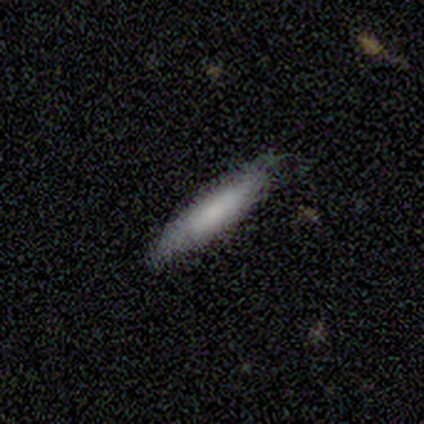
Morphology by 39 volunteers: type=smooth (82%); roundness=cigar-shaped (94%); merging=none (84%).